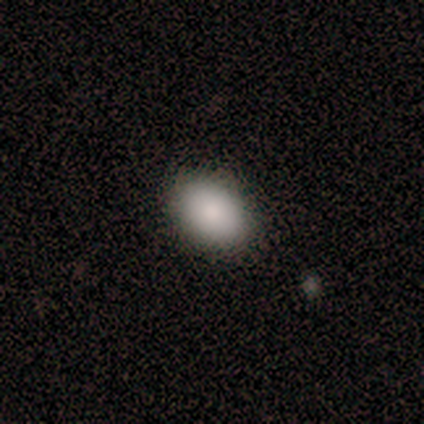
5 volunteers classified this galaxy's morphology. Smooth or featured?
  - smooth: 100% *
  - featured or disk: 0%
  - star or artifact: 0%
How rounded?
  - in between: 100% *
  - round: 0%
  - cigar-shaped: 0%
Merging?
  - none: 100% *
  - minor disturbance: 0%
  - major disturbance: 0%
  - merger: 0%